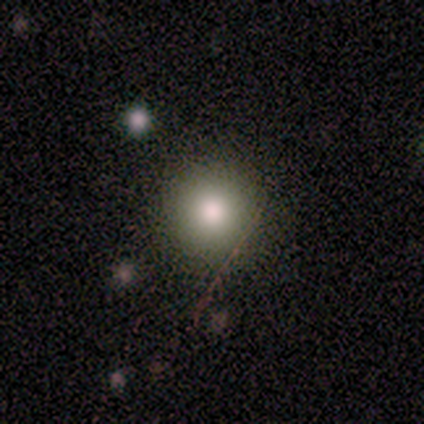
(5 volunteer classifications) A smooth galaxy with no disk features (80%) that is round (100%).

Vote fractions:
- Smooth or featured? smooth: 80% / featured or disk: 20% / star or artifact: 0%
- How rounded? round: 100% / in between: 0% / cigar-shaped: 0%
- Merging? none: 100% / minor disturbance: 0% / major disturbance: 0% / merger: 0%